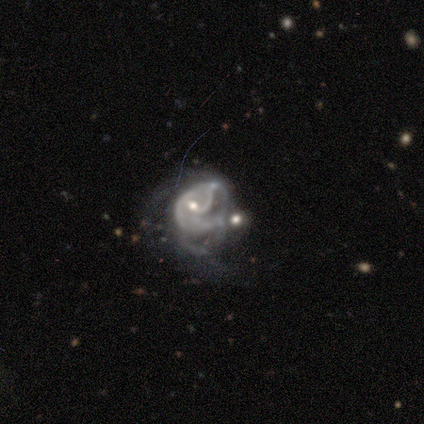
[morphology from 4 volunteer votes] Smooth or featured: featured or disk — 75% (star or artifact — 25%)
Edge-on disk: no — 100%
Bar: no — 67% (weak — 33%)
Spiral arms: yes — 67% (no — 33%)
Spiral winding: loose — 100%
Spiral arm count: 2 — 50% (tied with can't tell — 50%)
Bulge size: moderate — 67% (small — 33%)
Merging: merger — 100%